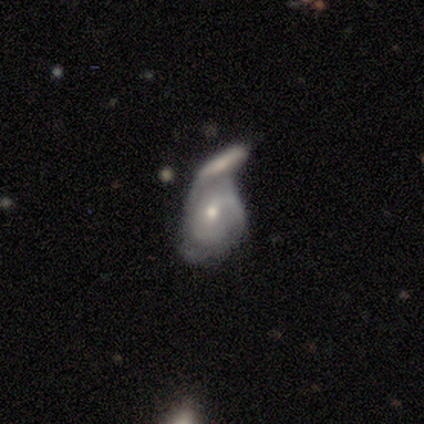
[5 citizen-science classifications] Smooth or featured: featured or disk — 100%
Edge-on disk: no — 80% (yes — 20%)
Bar: weak — 50% (tied with no — 50%)
Spiral arms: yes — 75% (no — 25%)
Spiral winding: loose — 100%
Spiral arm count: 2 — 33% (tied with 3 — 33%; can't tell — 33%)
Bulge size: small — 75% (moderate — 25%)
Merging: merger — 60% (none — 20%)